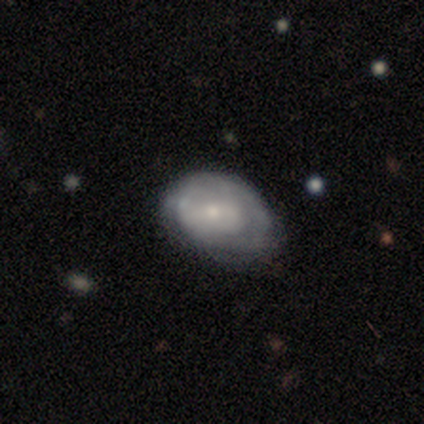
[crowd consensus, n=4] Smooth or featured? smooth (75%)
How rounded? in between (100%)
Merging? minor disturbance (50%)